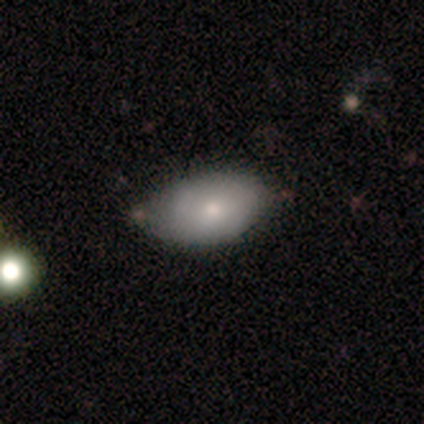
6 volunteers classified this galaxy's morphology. A smooth galaxy with no disk features (83%) that is in between round and cigar-shaped (100%).

Vote fractions:
- Smooth or featured? smooth: 83% / featured or disk: 17% / star or artifact: 0%
- How rounded? in between: 100% / round: 0% / cigar-shaped: 0%
- Merging? none: 67% / minor disturbance: 17% / merger: 17% / major disturbance: 0%